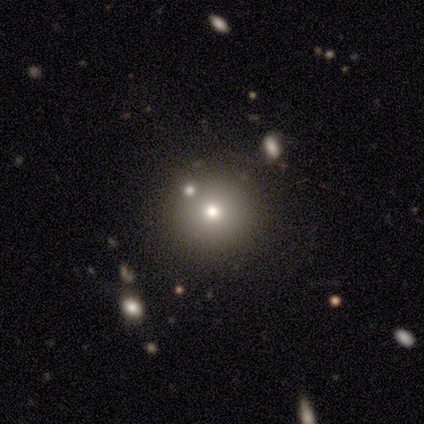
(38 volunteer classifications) smooth_or_featured: smooth (p=0.63) [alt: featured or disk p=0.21]
how_rounded: round (p=0.92) [alt: in between p=0.08]
merging: none (p=0.88) [alt: merger p=0.09]